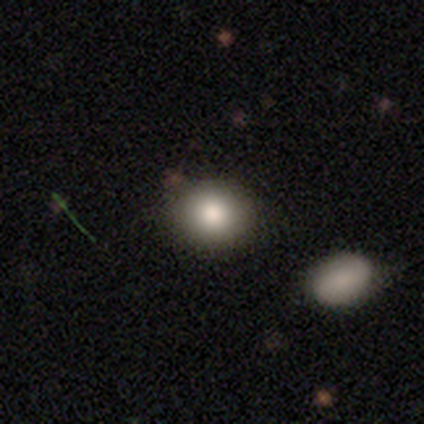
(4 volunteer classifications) smooth-or-featured: smooth: 100% | featured or disk: 0% | star or artifact: 0%
  how-rounded: round: 75% | in between: 25% | cigar-shaped: 0%
  merging: none: 100% | minor disturbance: 0% | major disturbance: 0% | merger: 0%